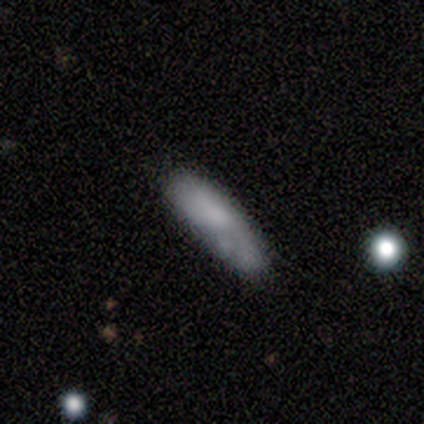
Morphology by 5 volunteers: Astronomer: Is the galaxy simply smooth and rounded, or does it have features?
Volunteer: smooth — 60% (runner-up: featured or disk, 40%).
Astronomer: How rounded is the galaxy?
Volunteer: cigar-shaped — 67%.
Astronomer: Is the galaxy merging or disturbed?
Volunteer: none — 60% (runner-up: minor disturbance, 40%).